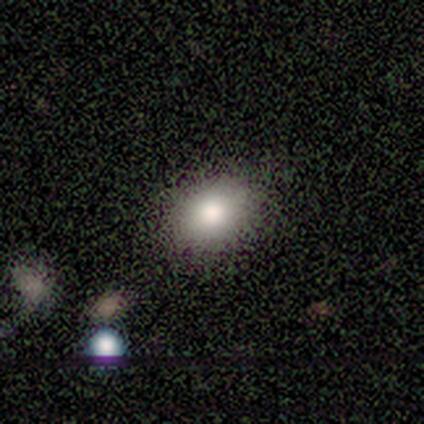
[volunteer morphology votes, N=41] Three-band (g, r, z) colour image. It shows a smooth galaxy with no disk features (78%) that is in between round and cigar-shaped (81%). Merging: none (88%).